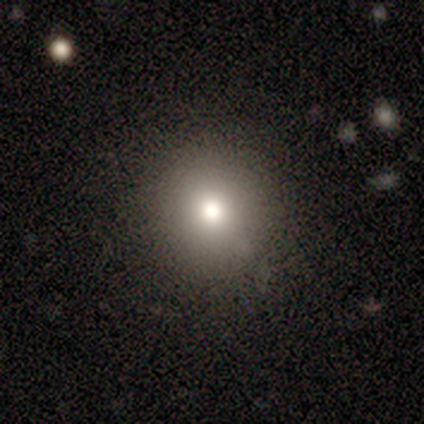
Q: Smooth or featured?
A: smooth (40%); tied with: star or artifact (40%)
Q: How rounded?
A: round (100%)
Q: Merging?
A: none (100%)